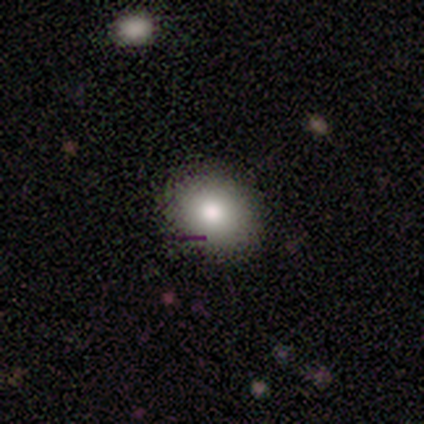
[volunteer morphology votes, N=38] Overall: smooth (76%). How rounded: round (52%; in between 48%). Merging: none (82%).